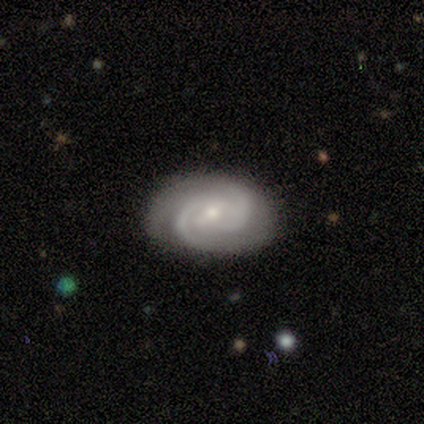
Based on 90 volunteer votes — Morphology: type=featured or disk (89%); edge-on=no (100%); bar=weak (46%); spiral arms=yes (96%); winding=tight (61%); arm count=2 (84%); bulge=small (65%); merging=none (84%).